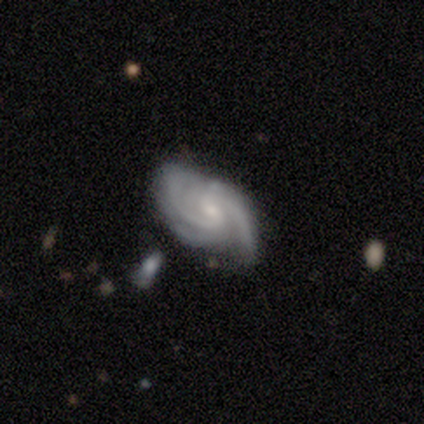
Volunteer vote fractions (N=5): Smooth or featured: featured or disk — 100%
Edge-on disk: no — 100%
Bar: no — 60% (weak — 40%)
Spiral arms: yes — 100%
Spiral winding: medium — 60% (tight — 40%)
Spiral arm count: 3 — 60% (2 — 40%)
Bulge size: small — 80% (moderate — 20%)
Merging: none — 80% (minor disturbance — 20%)